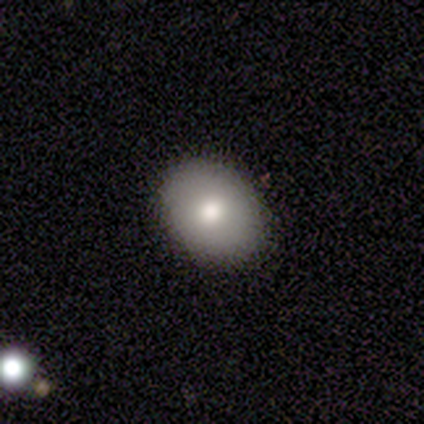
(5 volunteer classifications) Morphology: type=smooth (80%); roundness=round (100%); merging=none (100%).